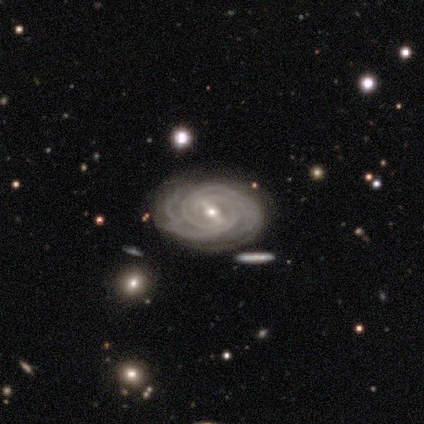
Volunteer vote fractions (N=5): A featured or disk galaxy (100%) with a strong bar (60%), tight (80%) spiral arms (100%) and a small central bulge (60%). Merging: none (80%).